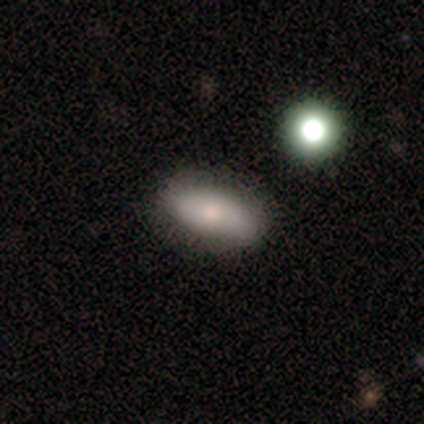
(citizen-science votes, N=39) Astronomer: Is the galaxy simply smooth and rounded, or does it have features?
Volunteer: smooth — 79%.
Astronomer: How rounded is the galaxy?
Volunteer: in between — 81%.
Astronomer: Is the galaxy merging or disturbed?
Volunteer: none — 78%.